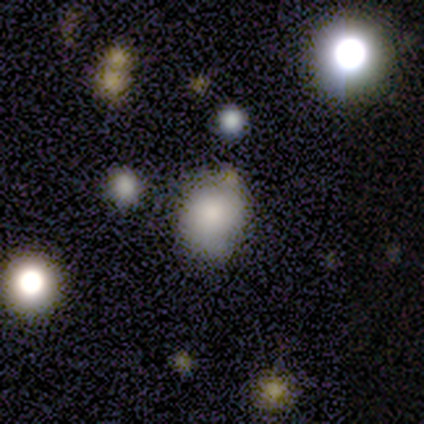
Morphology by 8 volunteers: smooth-or-featured: smooth: 62% | star or artifact: 25% | featured or disk: 12%
  how-rounded: round: 60% | in between: 40% | cigar-shaped: 0%
  merging: none: 67% | minor disturbance: 17% | major disturbance: 17% | merger: 0%